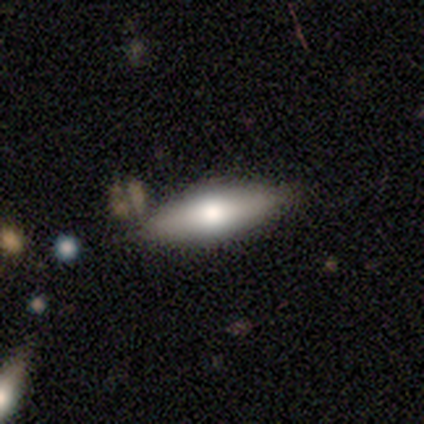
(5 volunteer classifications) smooth-or-featured: smooth: 60% | featured or disk: 40% | star or artifact: 0%
  how-rounded: in between: 100% | round: 0% | cigar-shaped: 0%
  merging: none: 100% | minor disturbance: 0% | major disturbance: 0% | merger: 0%